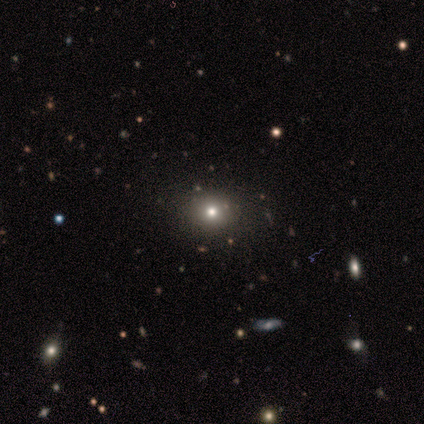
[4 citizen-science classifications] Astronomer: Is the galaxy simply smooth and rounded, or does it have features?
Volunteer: smooth — 75%.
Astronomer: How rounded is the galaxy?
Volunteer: in between — 67%.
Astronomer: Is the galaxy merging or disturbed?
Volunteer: none — 100%.